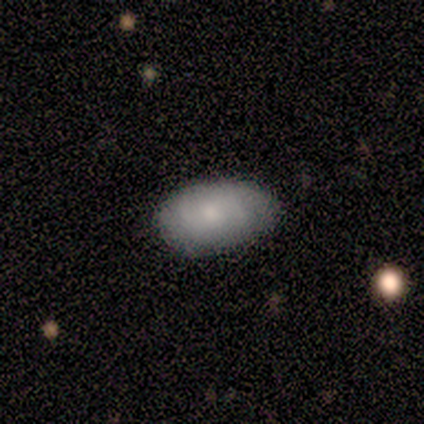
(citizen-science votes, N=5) Q: Smooth or featured?
A: smooth (80%); runner-up: featured or disk (20%)
Q: How rounded?
A: in between (100%)
Q: Merging?
A: none (100%)